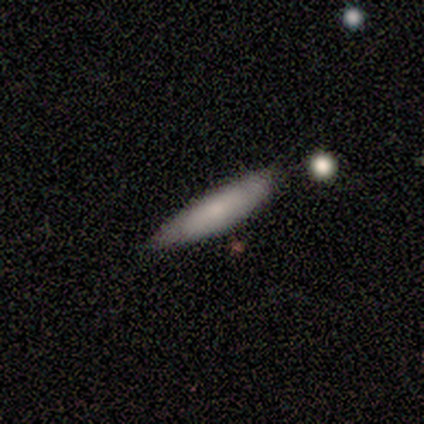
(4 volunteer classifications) Smooth or featured? smooth (75%)
How rounded? cigar-shaped (67%)
Merging? none (100%)